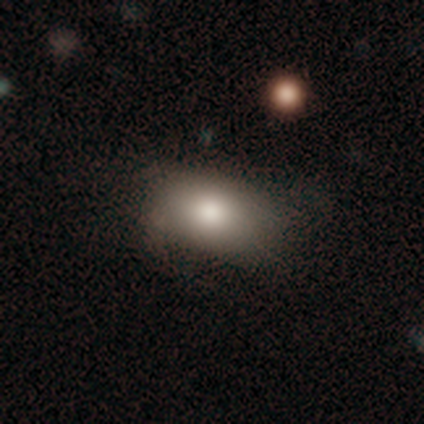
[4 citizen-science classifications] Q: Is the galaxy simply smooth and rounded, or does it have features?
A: smooth — 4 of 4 (100%).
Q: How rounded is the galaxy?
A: in between — 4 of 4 (100%).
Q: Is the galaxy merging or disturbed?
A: none — 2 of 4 (50%).